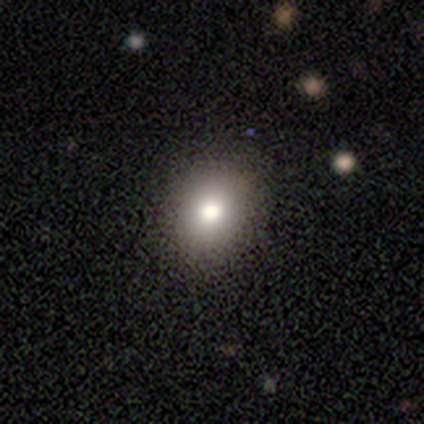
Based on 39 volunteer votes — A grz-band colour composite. It shows a smooth galaxy with no disk features (79%) that is round (55%). Merging: none (91%).